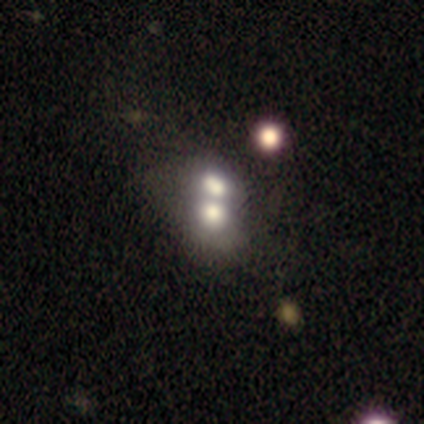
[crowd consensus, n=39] This appears to be a smooth galaxy with no disk features (54%) that is in between round and cigar-shaped (52%). Merging: merger (83%).